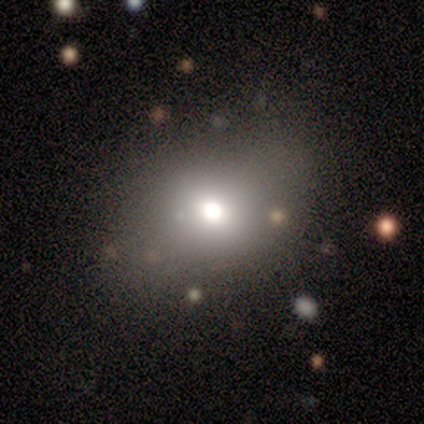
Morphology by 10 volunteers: type=smooth (70%); roundness=round (57%); merging=none (89%).